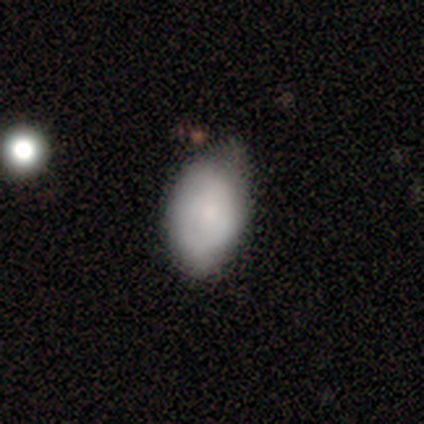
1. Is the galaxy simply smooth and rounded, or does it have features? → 57% smooth, 35% featured or disk, 8% star or artifact.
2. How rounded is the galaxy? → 91% in between, 4% round, 4% cigar-shaped.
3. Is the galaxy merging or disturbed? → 46% none, 38% minor disturbance, 8% major disturbance, 8% merger.